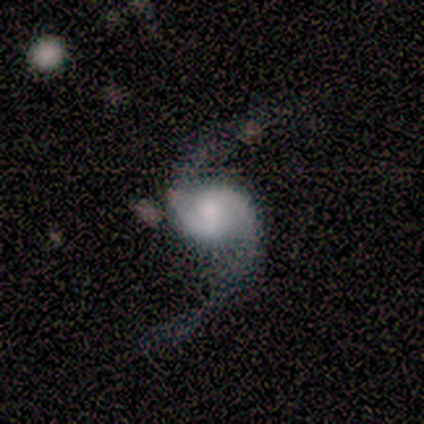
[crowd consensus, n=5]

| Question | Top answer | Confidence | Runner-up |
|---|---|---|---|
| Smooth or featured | featured or disk | 100% | — |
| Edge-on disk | no | 100% | — |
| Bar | no | 80% | weak (20%) |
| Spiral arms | yes | 100% | — |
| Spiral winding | loose | 100% | — |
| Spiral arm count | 2 | 100% | — |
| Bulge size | large | 40% | moderate (20%) |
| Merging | none | 80% | major disturbance (20%) |